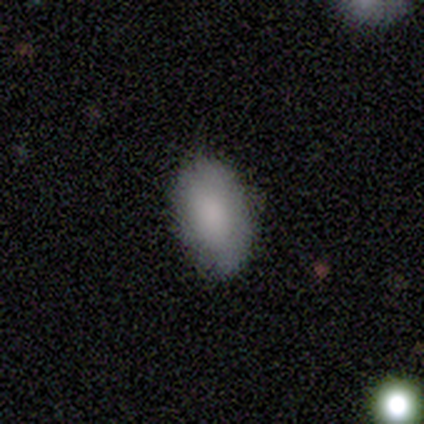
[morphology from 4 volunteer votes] Smooth or featured?
  - smooth: 75% *
  - star or artifact: 25%
  - featured or disk: 0%
How rounded?
  - in between: 100% *
  - round: 0%
  - cigar-shaped: 0%
Merging?
  - none: 100% *
  - minor disturbance: 0%
  - major disturbance: 0%
  - merger: 0%